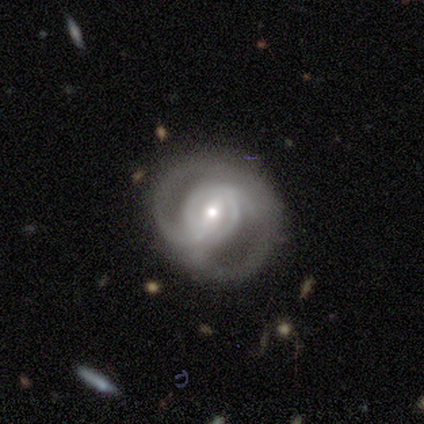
Q: Smooth or featured?
A: featured or disk (86%); runner-up: star or artifact (8%)
Q: Edge-on disk?
A: no (100%)
Q: Bar?
A: weak (45%); runner-up: strong (35%)
Q: Spiral arms?
A: yes (87%); runner-up: no (13%)
Q: Spiral winding?
A: tight (41%); runner-up: medium (30%)
Q: Spiral arm count?
A: 2 (63%); runner-up: can't tell (26%)
Q: Bulge size?
A: small (65%); runner-up: moderate (35%)
Q: Merging?
A: none (52%); runner-up: minor disturbance (30%)